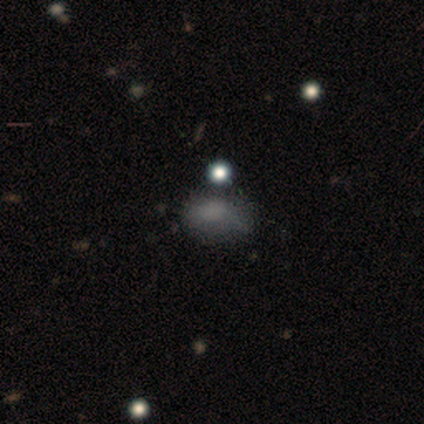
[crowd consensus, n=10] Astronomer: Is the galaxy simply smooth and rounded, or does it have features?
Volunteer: smooth — 90%.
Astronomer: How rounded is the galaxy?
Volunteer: in between — 78%.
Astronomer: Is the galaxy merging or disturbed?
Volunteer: none — 56% (runner-up: minor disturbance, 44%).